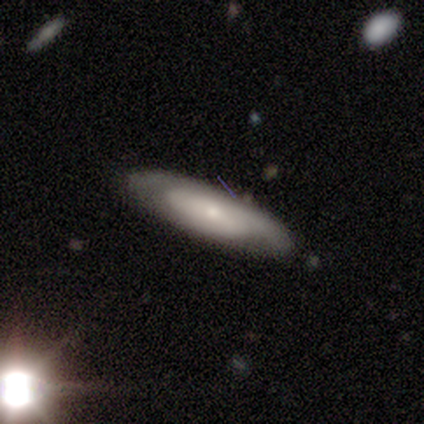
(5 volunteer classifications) This appears to be a smooth galaxy with no disk features (80%) that is in between round and cigar-shaped (75%). Merging: none (100%).